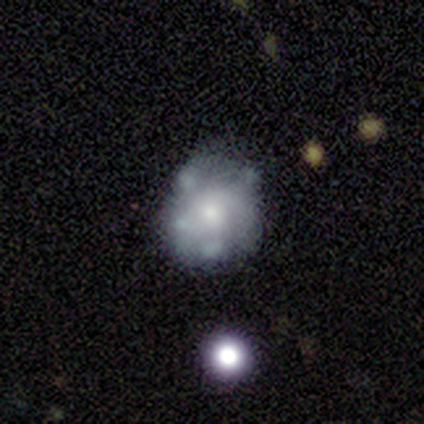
smooth_or_featured: featured or disk (p=0.80) [alt: smooth p=0.20]
disk_edge_on: no (p=1.00)
bar: no (p=0.50) [alt: strong p=0.25]
has_spiral_arms: no (p=0.75) [alt: yes p=0.25]
bulge_size: moderate (p=0.75) [alt: small p=0.25]
merging: none (p=0.60) [alt: minor disturbance p=0.40]